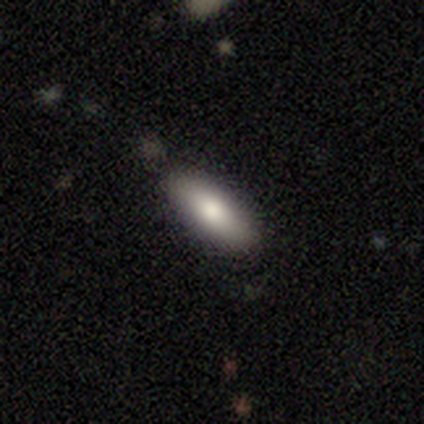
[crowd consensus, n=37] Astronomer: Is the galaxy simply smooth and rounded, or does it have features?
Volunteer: smooth — 86%.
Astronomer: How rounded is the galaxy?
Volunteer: in between — 72%.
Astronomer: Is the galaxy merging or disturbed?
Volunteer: none — 83%.